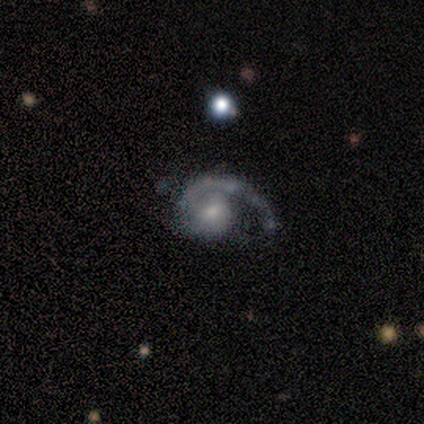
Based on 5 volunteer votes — Smooth or featured?
  - featured or disk: 80% *
  - smooth: 20%
  - star or artifact: 0%
Edge-on disk?
  - no: 100% *
  - yes: 0%
Bar?
  - weak: 50% * (tied)
  - no: 50% * (tied)
  - strong: 0%
Spiral arms?
  - yes: 100% *
  - no: 0%
Spiral winding?
  - medium: 50% *
  - tight: 25%
  - loose: 25%
Spiral arm count?
  - 1: 100% *
  - 2: 0%
  - 3: 0%
  - 4: 0%
  - more than 4: 0%
  - can't tell: 0%
Bulge size?
  - small: 50% *
  - large: 25%
  - moderate: 25%
  - dominant: 0%
  - none: 0%
Merging?
  - none: 60% *
  - minor disturbance: 40%
  - major disturbance: 0%
  - merger: 0%